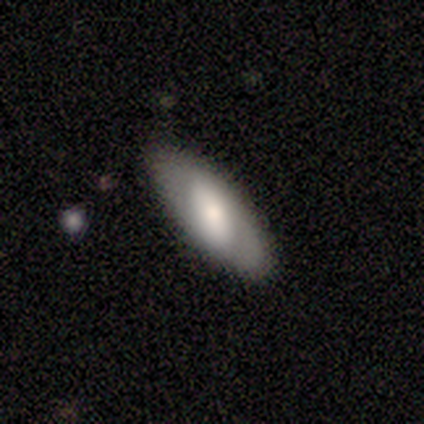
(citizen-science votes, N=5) smooth-or-featured: featured or disk: 60% | smooth: 40% | star or artifact: 0%
  disk-edge-on: yes: 67% | no: 33%
    edge-on-bulge: rounded: 100% | boxy: 0% | none: 0%
  merging: none: 100% | minor disturbance: 0% | major disturbance: 0% | merger: 0%